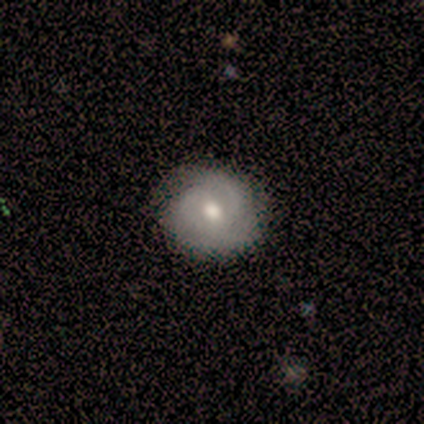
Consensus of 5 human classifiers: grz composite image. It shows a featured or disk galaxy (60%) with no bar (100%), 2 (67%) tight (67%) spiral arms (100%) and a moderate central bulge (67%). Merging: none (100%).